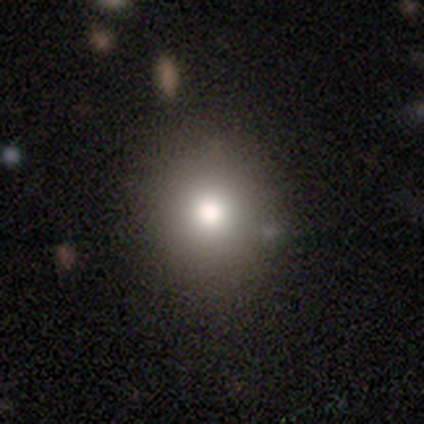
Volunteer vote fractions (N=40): smooth 80%, star or artifact 12%, featured or disk 8%. Down the decision tree: how rounded — round (94%); merging — none (54%).